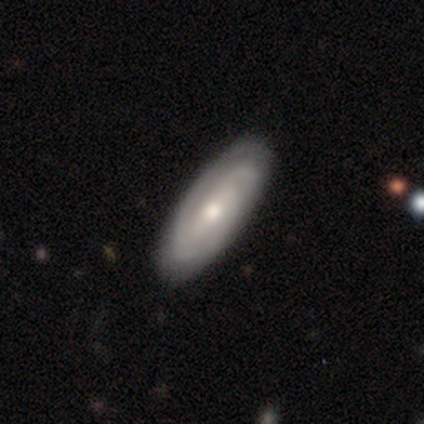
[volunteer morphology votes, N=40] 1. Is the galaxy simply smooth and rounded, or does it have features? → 68% featured or disk, 30% smooth, 2% star or artifact.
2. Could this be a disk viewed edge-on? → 93% no, 7% yes.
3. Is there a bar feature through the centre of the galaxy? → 48% no, 32% weak, 20% strong.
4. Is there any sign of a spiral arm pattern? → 100% yes, 0% no.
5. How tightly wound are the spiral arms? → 64% tight, 32% medium, 4% loose.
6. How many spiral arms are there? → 40% 2, 36% can't tell, 24% 3, 0% 1, 0% 4, 0% more than 4.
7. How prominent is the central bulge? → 60% moderate, 36% small, 4% dominant, 0% large, 0% none.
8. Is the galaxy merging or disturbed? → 69% none, 5% minor disturbance, 0% major disturbance, 0% merger.